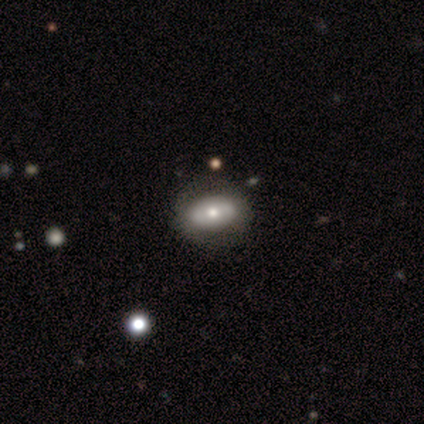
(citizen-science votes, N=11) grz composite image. It shows a smooth galaxy with no disk features (55%) that is in between round and cigar-shaped (67%). Merging: none (90%).